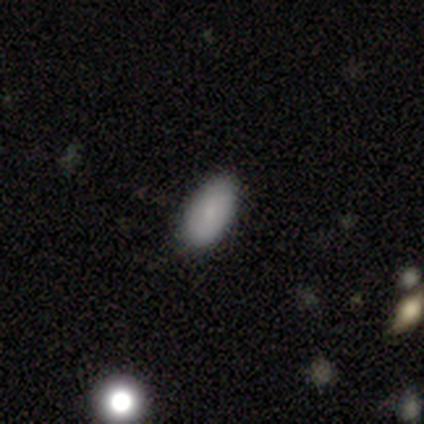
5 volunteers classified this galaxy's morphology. Smooth or featured? smooth (100%)
How rounded? in between (100%)
Merging? none (60%)